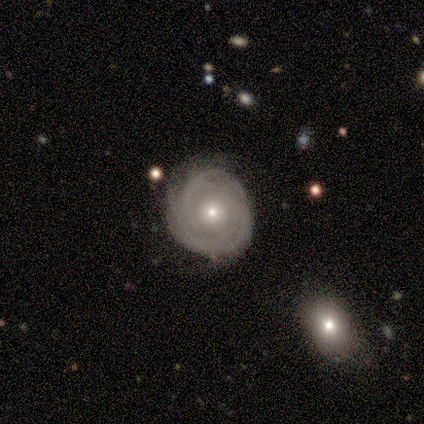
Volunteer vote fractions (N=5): Smooth or featured? featured or disk (100%)
Edge-on disk? no (100%)
Bar? no (80%)
Spiral arms? yes (80%)
Spiral winding? tight (75%)
Spiral arm count? can't tell (50%)
Bulge size? small (60%)
Merging? none (80%)